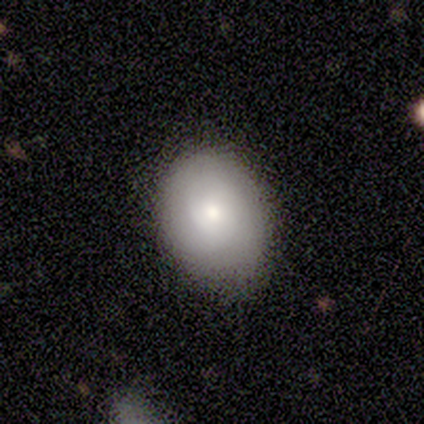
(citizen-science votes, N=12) Overall: smooth (92%). How rounded: round (64%; in between 36%). Merging: none (82%).